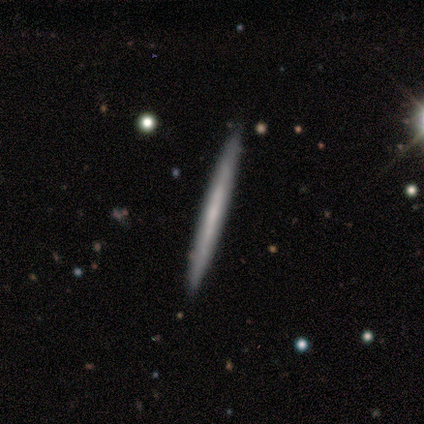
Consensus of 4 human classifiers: smooth_or_featured: smooth (p=0.75) [alt: featured or disk p=0.25]
how_rounded: cigar-shaped (p=1.00)
merging: none (p=1.00)